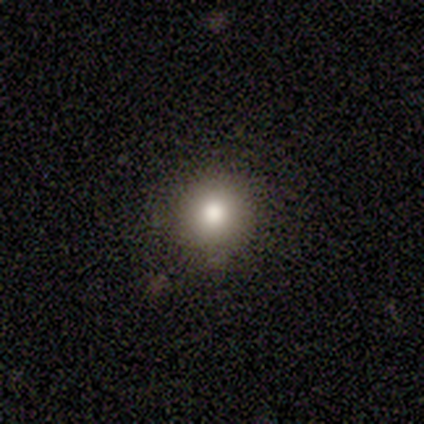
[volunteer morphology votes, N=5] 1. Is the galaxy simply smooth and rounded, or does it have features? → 80% smooth, 20% star or artifact, 0% featured or disk.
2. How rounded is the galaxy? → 100% round, 0% in between, 0% cigar-shaped.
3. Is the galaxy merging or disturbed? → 100% none, 0% minor disturbance, 0% major disturbance, 0% merger.